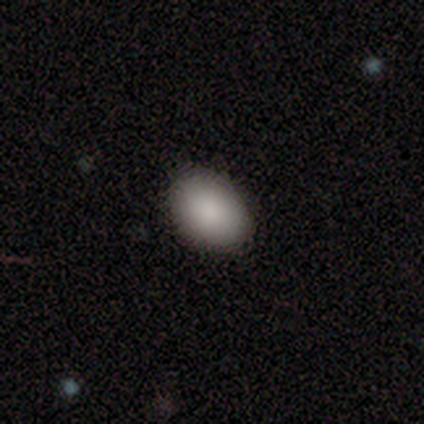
Q: Smooth or featured?
A: smooth (84%); runner-up: featured or disk (8%)
Q: How rounded?
A: in between (75%); runner-up: round (25%)
Q: Merging?
A: none (97%); runner-up: minor disturbance (3%)